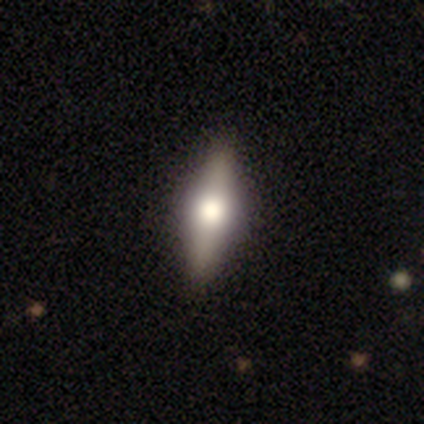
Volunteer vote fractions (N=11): Smooth or featured: smooth — 45% (tied with featured or disk — 45%)
How rounded: cigar-shaped — 100%
Merging: none — 80% (minor disturbance — 20%)